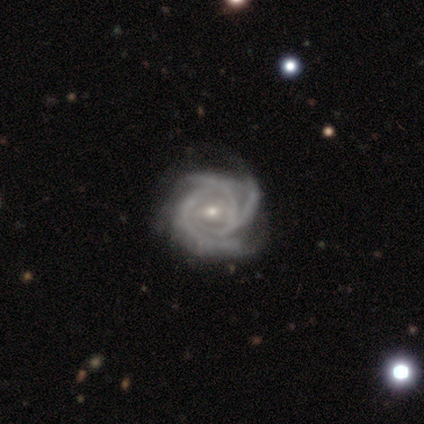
smooth-or-featured: featured or disk: 100% | smooth: 0% | star or artifact: 0%
  disk-edge-on: no: 100% | yes: 0%
    bar: no: 60% | weak: 40% | strong: 0%
    has-spiral-arms: yes: 100% | no: 0%
      spiral-winding: tight: 80% | medium: 20% | loose: 0%
      spiral-arm-count: 3: 80% | can't tell: 20% | 1: 0% | 2: 0% | 4: 0% | more than 4: 0%
    bulge-size: small: 60% | moderate: 40% | dominant: 0% | large: 0% | none: 0%
  merging: none: 100% | minor disturbance: 0% | major disturbance: 0% | merger: 0%